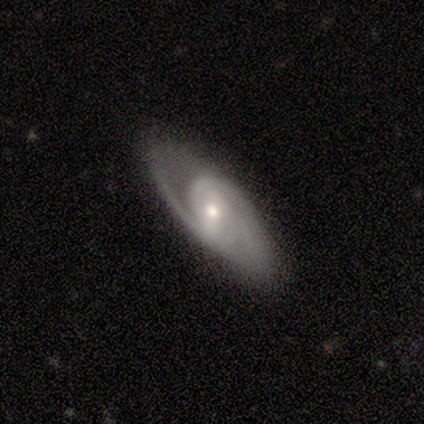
featured or disk 57%, smooth 43%, star or artifact 0%. Down the decision tree: edge-on disk — no (75%); bar — weak (100%); spiral arms — yes (100%); spiral arm count — 2 (100%); spiral winding — medium (67%); bulge size — small (67%); merging — none (86%).